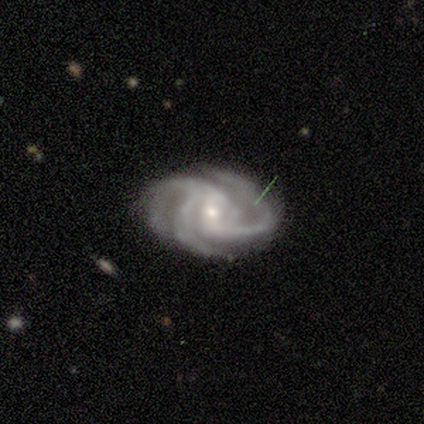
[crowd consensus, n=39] Overall: featured or disk (90%). Edge-on disk: no (100%). Bar: weak (46%; no 40%). Spiral arms: yes (100%). Spiral arm count: 3 (89%). Spiral winding: tight (57%; medium 37%). Bulge size: small (83%). Merging: none (81%).